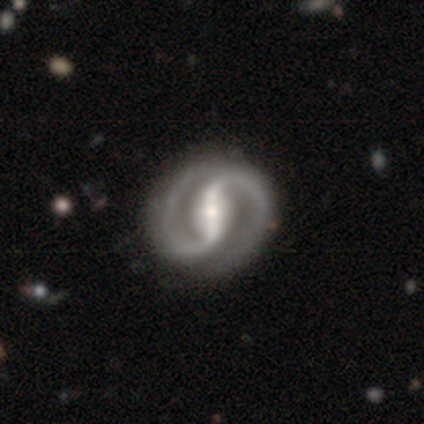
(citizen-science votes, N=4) featured or disk 75%, star or artifact 25%, smooth 0%. Down the decision tree: edge-on disk — no (100%); bar — strong (67%); spiral arms — yes (100%); spiral arm count — 2 (100%); spiral winding — loose (67%); bulge size — moderate (100%); merging — none (67%).